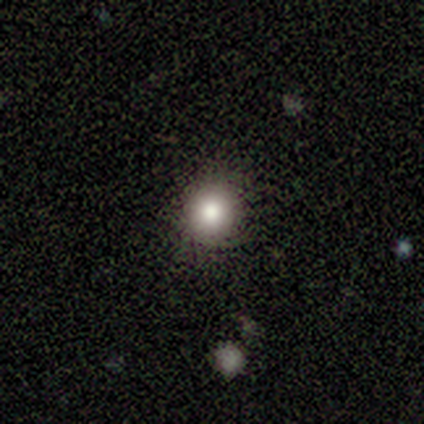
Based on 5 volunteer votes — smooth-or-featured: smooth: 60% | featured or disk: 20% | star or artifact: 20%
  how-rounded: round: 100% | in between: 0% | cigar-shaped: 0%
  merging: none: 100% | minor disturbance: 0% | major disturbance: 0% | merger: 0%